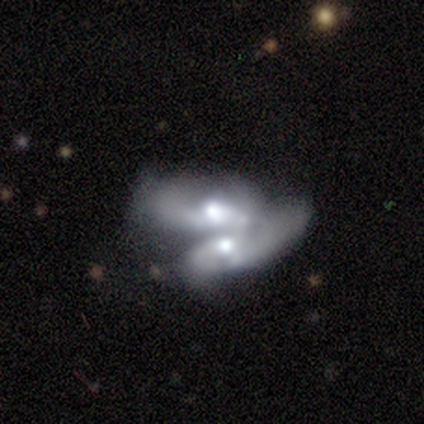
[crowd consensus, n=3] Volunteers were most divided on "bar" (2-way tie): weak: 50%, no: 50%, strong: 0%; "spiral arms" (2-way tie): yes: 50%, no: 50%; "merging" (3-way tie): none: 33%, minor disturbance: 33%, merger: 33%, major disturbance: 0%. More confident: edge-on disk — no (100%); spiral winding — tight (100%); spiral arm count — 3 (100%); bulge size — moderate (100%); smooth or featured — featured or disk (67%).